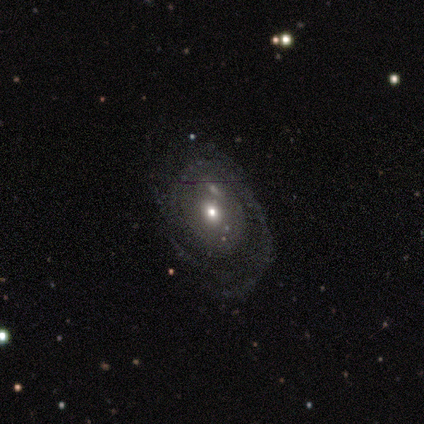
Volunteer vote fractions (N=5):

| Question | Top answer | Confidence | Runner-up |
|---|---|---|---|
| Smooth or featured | featured or disk | 80% | smooth (20%) |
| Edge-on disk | no | 100% | — |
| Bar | no | 100% | — |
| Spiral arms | yes | 100% | — |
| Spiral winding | tight | 75% | medium (25%) |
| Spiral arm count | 1 | 50% | more than 4 (25%) |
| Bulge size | moderate | 50% | tied: small (50%) |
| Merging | none | 80% | minor disturbance (20%) |